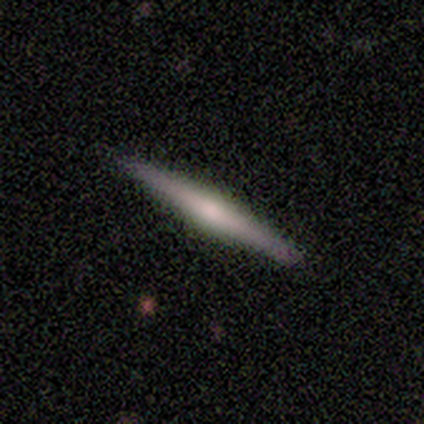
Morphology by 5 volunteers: A smooth galaxy with no disk features (60%) that is cigar-shaped (100%).

Vote fractions:
- Smooth or featured? smooth: 60% / featured or disk: 40% / star or artifact: 0%
- How rounded? cigar-shaped: 100% / round: 0% / in between: 0%
- Merging? none: 100% / minor disturbance: 0% / major disturbance: 0% / merger: 0%